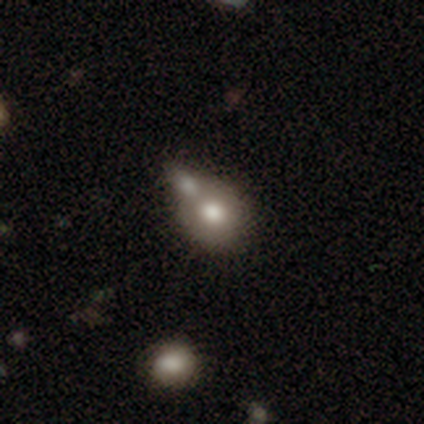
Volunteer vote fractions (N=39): Smooth or featured?
  - smooth: 74% *
  - featured or disk: 23%
  - star or artifact: 3%
How rounded?
  - round: 59% *
  - in between: 41%
  - cigar-shaped: 0%
Merging?
  - merger: 61% *
  - none: 32%
  - major disturbance: 5%
  - minor disturbance: 3%